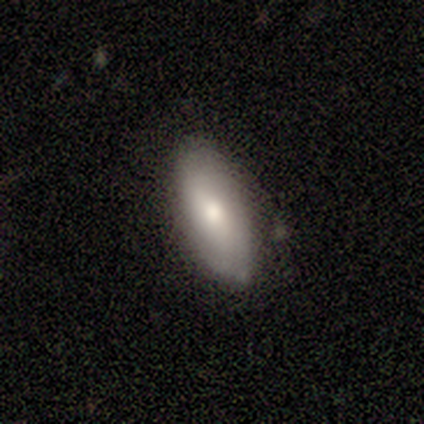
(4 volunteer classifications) A smooth galaxy with no disk features (75%) that is in between round and cigar-shaped (100%). Merging: none (75%).